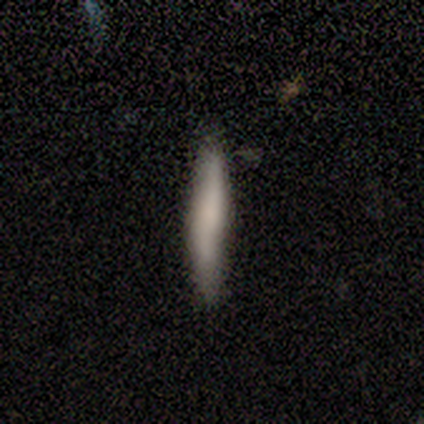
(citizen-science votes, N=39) smooth 69%, featured or disk 23%, star or artifact 8%. Down the decision tree: how rounded — cigar-shaped (100%); merging — none (89%).